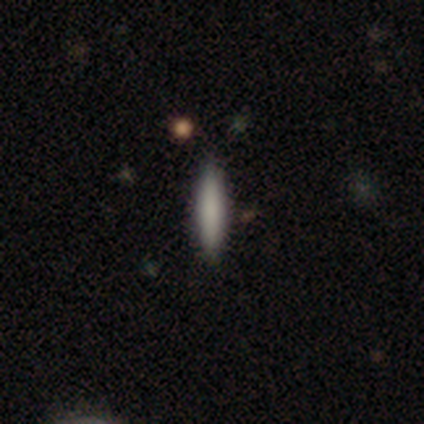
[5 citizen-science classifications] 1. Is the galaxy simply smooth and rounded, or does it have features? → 60% smooth, 20% featured or disk, 20% star or artifact.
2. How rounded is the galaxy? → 67% cigar-shaped, 33% in between, 0% round.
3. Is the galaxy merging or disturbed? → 100% none, 0% minor disturbance, 0% major disturbance, 0% merger.